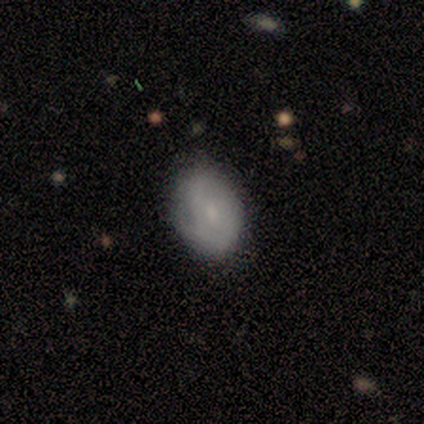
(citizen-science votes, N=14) Q: Smooth or featured?
A: featured or disk (57%); runner-up: smooth (43%)
Q: Edge-on disk?
A: no (100%)
Q: Bar?
A: no (88%); runner-up: weak (12%)
Q: Spiral arms?
A: yes (62%); runner-up: no (38%)
Q: Spiral winding?
A: tight (40%); tied with: medium (40%)
Q: Spiral arm count?
A: 2 (40%); tied with: can't tell (40%)
Q: Bulge size?
A: small (62%); runner-up: moderate (25%)
Q: Merging?
A: none (71%); runner-up: minor disturbance (29%)